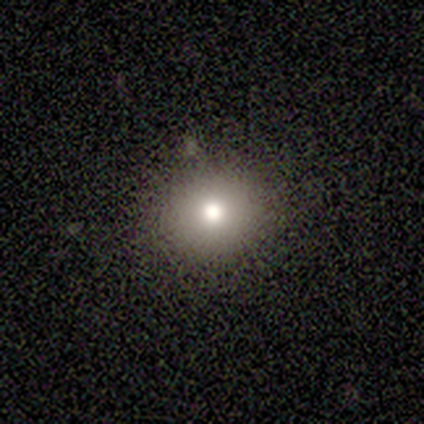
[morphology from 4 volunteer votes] Overall: smooth (100%). How rounded: round (75%). Merging: none (100%).